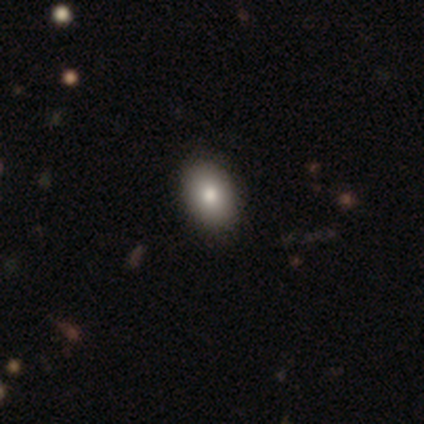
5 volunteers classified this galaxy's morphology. A smooth galaxy with no disk features (100%) that is in between round and cigar-shaped (80%).

Vote fractions:
- Smooth or featured? smooth: 100% / featured or disk: 0% / star or artifact: 0%
- How rounded? in between: 80% / round: 20% / cigar-shaped: 0%
- Merging? none: 80% / minor disturbance: 20% / major disturbance: 0% / merger: 0%